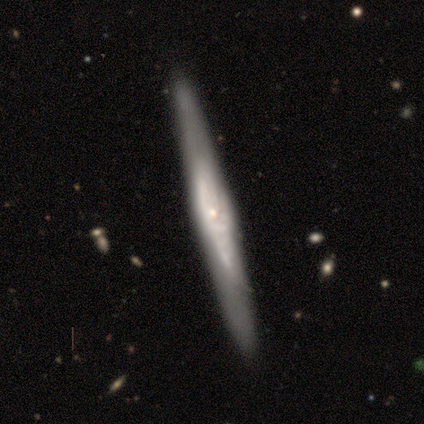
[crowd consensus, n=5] smooth-or-featured: featured or disk: 80% | smooth: 20% | star or artifact: 0%
  disk-edge-on: yes: 75% | no: 25%
    edge-on-bulge: rounded: 100% | boxy: 0% | none: 0%
  merging: none: 100% | minor disturbance: 0% | major disturbance: 0% | merger: 0%